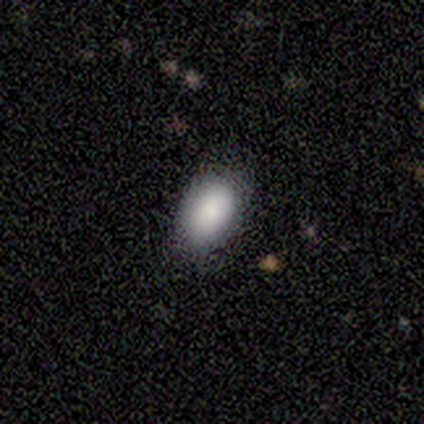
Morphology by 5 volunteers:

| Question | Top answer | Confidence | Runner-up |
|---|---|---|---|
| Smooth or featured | smooth | 100% | — |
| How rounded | in between | 100% | — |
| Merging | none | 100% | — |